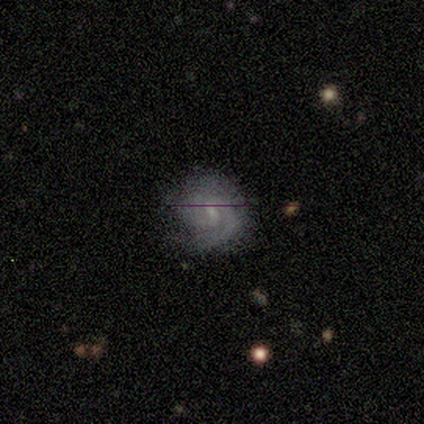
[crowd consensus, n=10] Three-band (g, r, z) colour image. It shows a featured or disk galaxy (90%) with no bar (56%), 1 (43%) tight (57%) spiral arms (78%) and a small central bulge (56%). Merging: none (70%).